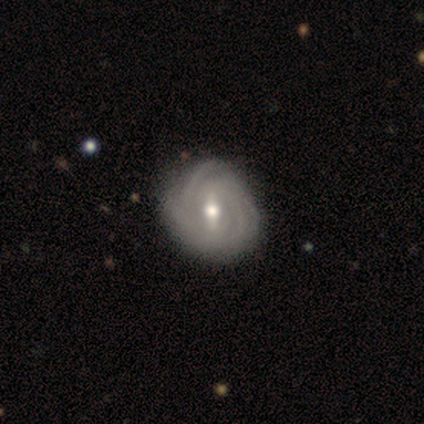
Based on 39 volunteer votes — Morphology: type=featured or disk (85%); edge-on=no (100%); bar=weak (48%); spiral arms=yes (100%); winding=tight (82%); arm count=3 (30%, tied with can't tell); bulge=moderate (76%); merging=none (55%).